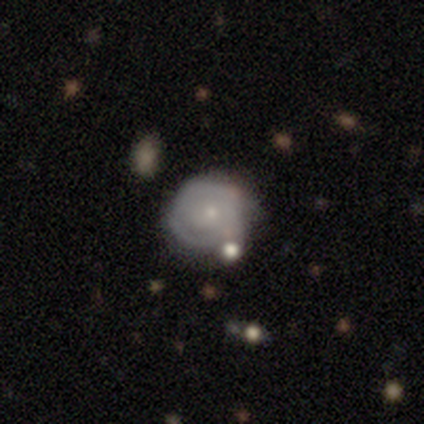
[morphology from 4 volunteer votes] A featured or disk galaxy (50%) with no bar (100%), 2 (100%) tight (100%) spiral arms (50%, tied with no) and a small central bulge (50%, tied with none). Merging: none (33%, tied with minor disturbance and merger).